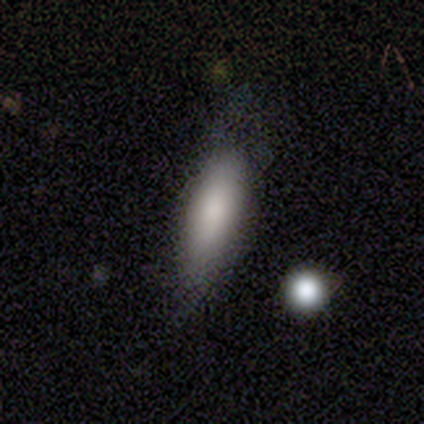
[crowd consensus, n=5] smooth 80%, star or artifact 20%, featured or disk 0%. Down the decision tree: how rounded — in between (100%); merging — none (100%).